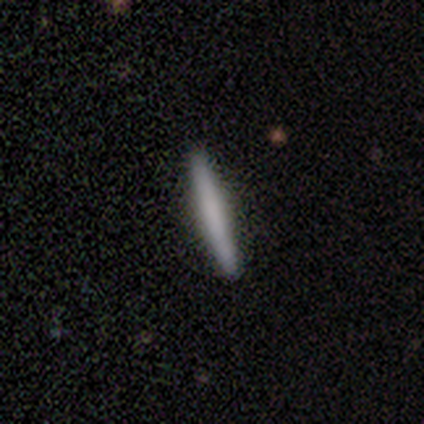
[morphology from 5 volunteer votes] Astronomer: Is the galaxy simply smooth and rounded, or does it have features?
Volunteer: smooth — 80%.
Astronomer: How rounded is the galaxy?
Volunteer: cigar-shaped — 100%.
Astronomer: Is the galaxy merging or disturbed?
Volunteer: none — 100%.